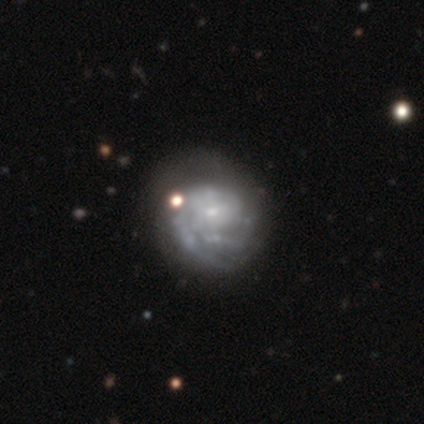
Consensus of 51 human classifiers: Smooth or featured: featured or disk — 88% (smooth — 8%)
Edge-on disk: no — 100%
Bar: no — 78% (weak — 18%)
Spiral arms: yes — 96% (no — 4%)
Spiral winding: tight — 72% (medium — 21%)
Spiral arm count: 2 — 49% (can't tell — 23%)
Bulge size: small — 78% (moderate — 11%)
Merging: none — 65% (minor disturbance — 27%)